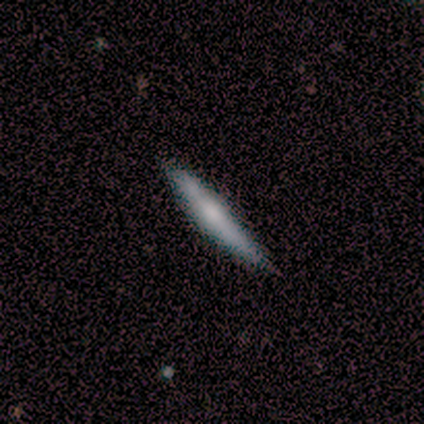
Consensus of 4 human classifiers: Smooth or featured? smooth (50%, tied with featured or disk)
How rounded? cigar-shaped (100%)
Merging? none (100%)